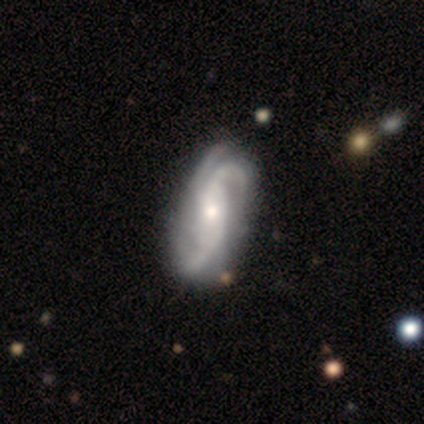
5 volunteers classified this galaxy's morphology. featured or disk 100%, smooth 0%, star or artifact 0%. Down the decision tree: edge-on disk — no (100%); bar — no (80%); spiral arms — yes (100%); spiral arm count — 2 (40%, tied with 3); spiral winding — tight (40%, tied with loose); bulge size — small (60%); merging — none (80%).